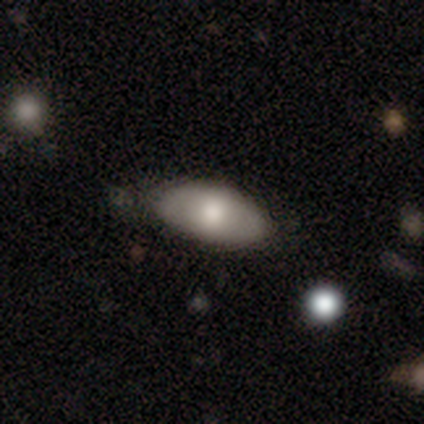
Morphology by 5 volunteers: This appears to be a smooth galaxy with no disk features (80%) that is in between round and cigar-shaped (100%). Merging: none (60%).